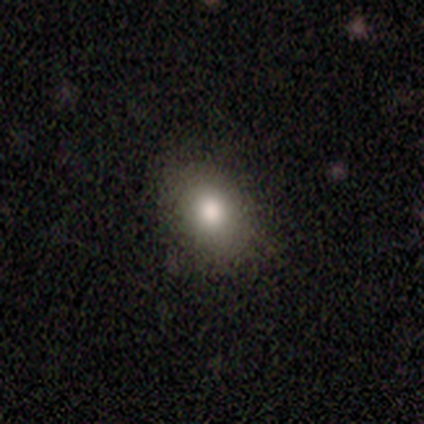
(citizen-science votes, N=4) A smooth galaxy with no disk features (50%, tied with featured or disk) that is round (50%, tied with in between). Merging: none (100%).